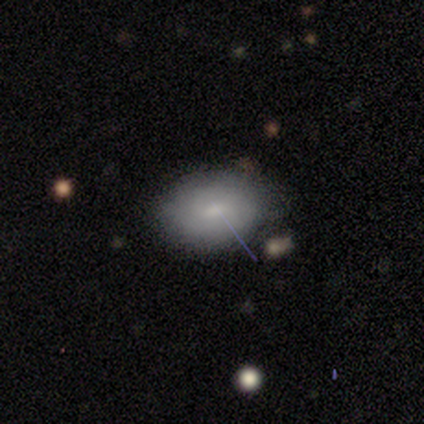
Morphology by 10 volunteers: A smooth galaxy with no disk features (60%) that is in between round and cigar-shaped (67%). Merging: none (89%).